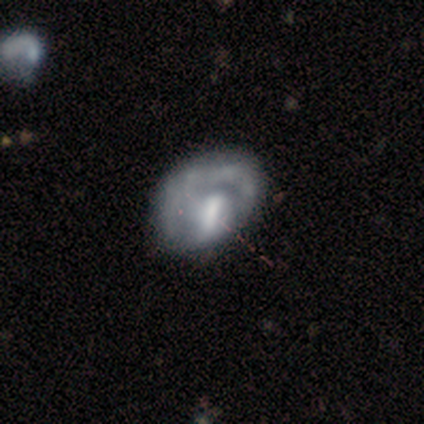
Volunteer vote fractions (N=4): A smooth galaxy with no disk features (50%, tied with featured or disk) that is round (50%, tied with in between).

Vote fractions:
- Smooth or featured? smooth: 50% (tied) / featured or disk: 50% (tied) / star or artifact: 0%
- How rounded? round: 50% (tied) / in between: 50% (tied) / cigar-shaped: 0%
- Merging? major disturbance: 75% / merger: 25% / none: 0% / minor disturbance: 0%